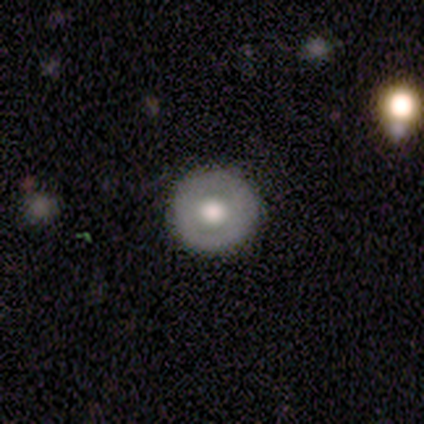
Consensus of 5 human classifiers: This is likely a featured or disk galaxy (60%). It is clearly not viewed edge-on (100%). Bar: clearly no (100%). Spiral arm pattern: clearly no (100%). Central bulge: likely large (67%). Merging: clearly none (100%).